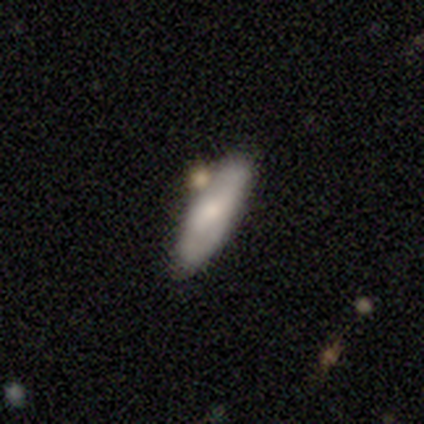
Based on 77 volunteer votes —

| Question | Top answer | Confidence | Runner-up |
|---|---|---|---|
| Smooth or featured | smooth | 65% | featured or disk (31%) |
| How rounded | in between | 54% | cigar-shaped (46%) |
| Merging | none | 34% | merger (16%) |